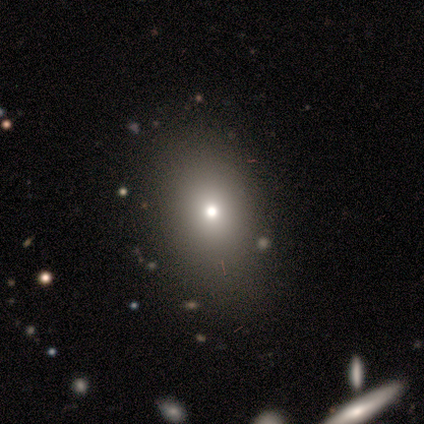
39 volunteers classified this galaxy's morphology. Smooth or featured? smooth (64%)
How rounded? in between (80%)
Merging? none (53%)